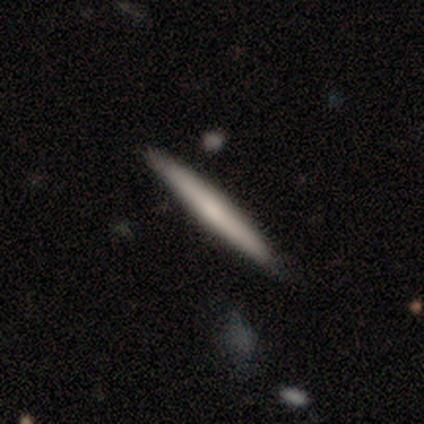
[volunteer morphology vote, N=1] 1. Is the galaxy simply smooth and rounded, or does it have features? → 100% smooth, 0% featured or disk, 0% star or artifact.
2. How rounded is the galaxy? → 100% cigar-shaped, 0% round, 0% in between.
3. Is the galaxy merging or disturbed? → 100% merger, 0% none, 0% minor disturbance, 0% major disturbance.